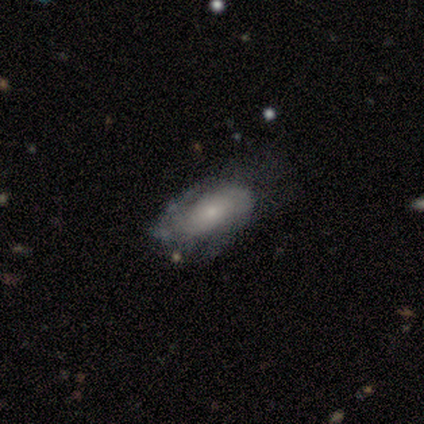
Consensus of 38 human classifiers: Q: Smooth or featured?
A: featured or disk (58%); runner-up: smooth (34%)
Q: Edge-on disk?
A: no (91%); runner-up: yes (9%)
Q: Bar?
A: no (60%); runner-up: weak (40%)
Q: Spiral arms?
A: yes (65%); runner-up: no (35%)
Q: Spiral winding?
A: tight (54%); runner-up: medium (31%)
Q: Spiral arm count?
A: 2 (69%); runner-up: can't tell (23%)
Q: Bulge size?
A: small (70%); runner-up: moderate (15%)
Q: Merging?
A: none (37%); runner-up: minor disturbance (34%)